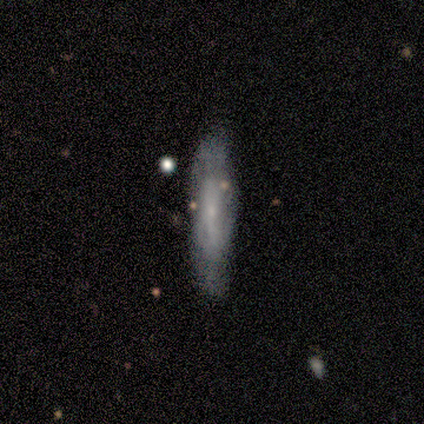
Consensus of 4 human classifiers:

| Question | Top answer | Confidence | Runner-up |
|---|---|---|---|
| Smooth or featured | smooth | 75% | featured or disk (25%) |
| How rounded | cigar-shaped | 100% | — |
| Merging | none | 50% | minor disturbance (25%) |